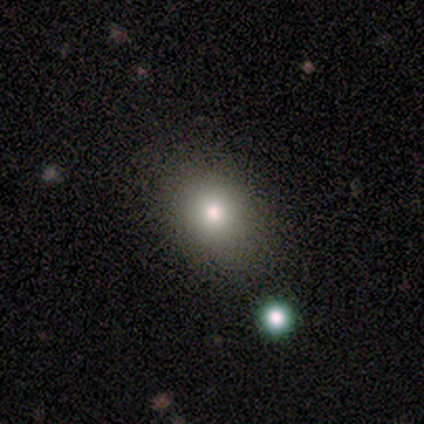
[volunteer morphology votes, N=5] Smooth or featured? 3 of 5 (60%) said smooth. How rounded? 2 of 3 (67%) said round. Merging? 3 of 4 (75%) said none.